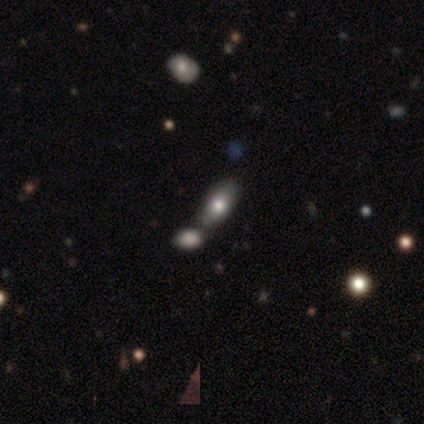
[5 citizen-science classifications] Smooth or featured: smooth — 60% (featured or disk — 20%)
How rounded: in between — 67% (cigar-shaped — 33%)
Merging: none — 25% (tied with minor disturbance — 25%; major disturbance — 25%; merger — 25%)